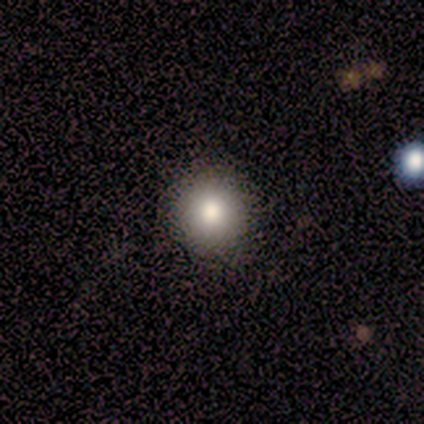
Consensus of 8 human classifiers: This appears to be a smooth galaxy with no disk features (88%) that is round (100%). Merging: none (88%).